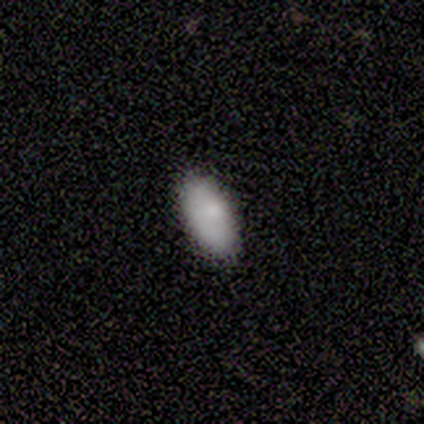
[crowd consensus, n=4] Overall: smooth (100%). How rounded: in between (100%). Merging: none (100%).